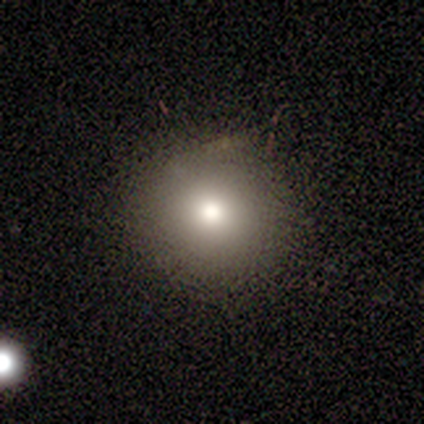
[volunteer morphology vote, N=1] A smooth galaxy with no disk features (100%) that is round (100%).

Vote fractions:
- Smooth or featured? smooth: 100% / featured or disk: 0% / star or artifact: 0%
- How rounded? round: 100% / in between: 0% / cigar-shaped: 0%
- Merging? none: 100% / minor disturbance: 0% / major disturbance: 0% / merger: 0%